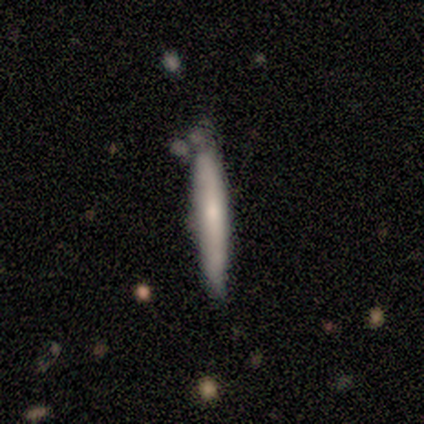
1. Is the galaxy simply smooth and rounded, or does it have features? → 71% smooth, 29% featured or disk, 0% star or artifact.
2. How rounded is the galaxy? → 100% cigar-shaped, 0% round, 0% in between.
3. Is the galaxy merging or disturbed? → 86% none, 14% minor disturbance, 0% major disturbance, 0% merger.